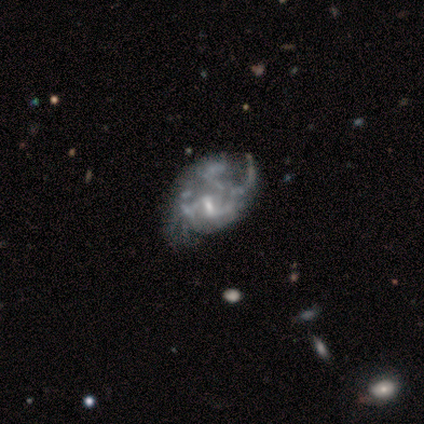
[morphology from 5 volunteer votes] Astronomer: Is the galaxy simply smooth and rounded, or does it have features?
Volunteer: featured or disk — 80%.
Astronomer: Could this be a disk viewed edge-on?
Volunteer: no — 100%.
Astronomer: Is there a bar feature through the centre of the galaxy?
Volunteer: no — 75%.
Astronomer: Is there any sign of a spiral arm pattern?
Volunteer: no — 75%.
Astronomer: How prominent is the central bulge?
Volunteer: small — 50%.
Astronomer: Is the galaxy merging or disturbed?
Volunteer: minor disturbance — 60% (runner-up: major disturbance, 40%).